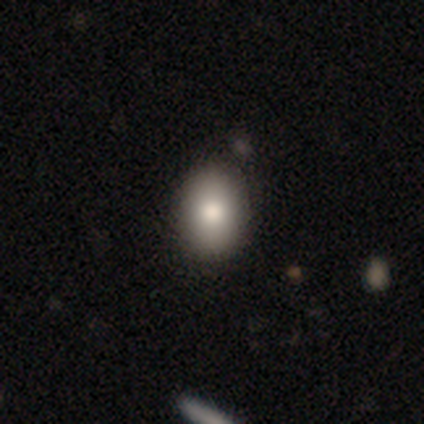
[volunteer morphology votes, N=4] This appears to be a smooth galaxy with no disk features (50%, tied with featured or disk) that is in between round and cigar-shaped (100%). Merging: none (100%).